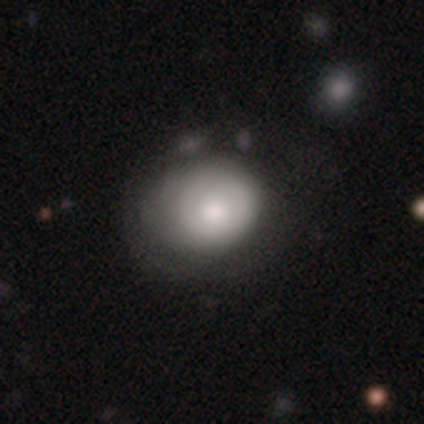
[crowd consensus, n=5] A smooth galaxy with no disk features (60%) that is round (100%). Merging: minor disturbance (60%).